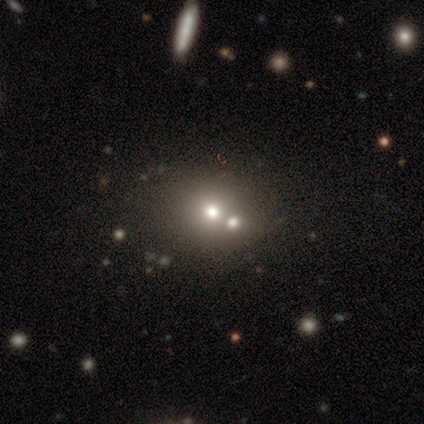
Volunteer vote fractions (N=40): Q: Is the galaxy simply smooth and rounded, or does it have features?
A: smooth — 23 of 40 (57%).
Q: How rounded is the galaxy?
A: round — 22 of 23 (96%).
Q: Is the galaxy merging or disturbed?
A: merger — 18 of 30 (60%).